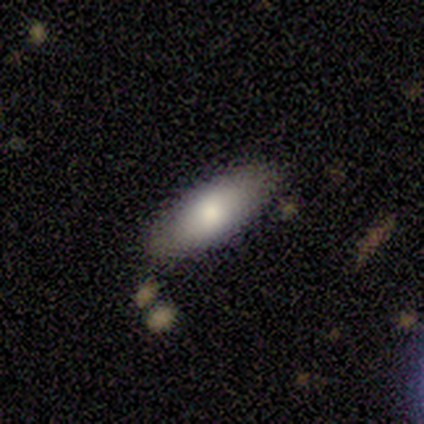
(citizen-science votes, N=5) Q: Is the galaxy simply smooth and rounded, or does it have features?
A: smooth — 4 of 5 (80%).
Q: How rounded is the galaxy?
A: in between — 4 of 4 (100%).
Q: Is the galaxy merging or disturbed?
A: none — 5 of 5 (100%).